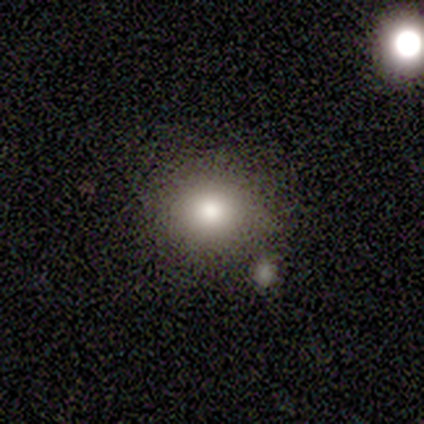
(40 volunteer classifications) smooth 68%, star or artifact 20%, featured or disk 12%. Down the decision tree: how rounded — round (78%); merging — none (75%).